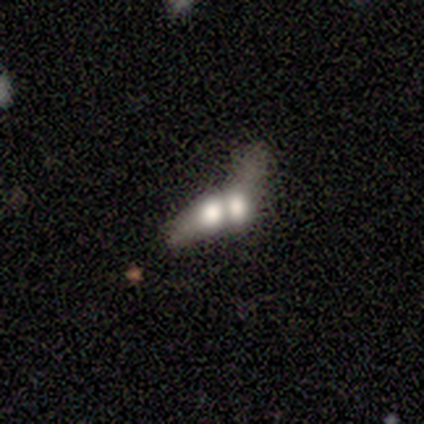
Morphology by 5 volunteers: Q: Smooth or featured?
A: smooth (80%); runner-up: featured or disk (20%)
Q: How rounded?
A: cigar-shaped (50%); runner-up: round (25%)
Q: Merging?
A: merger (100%)